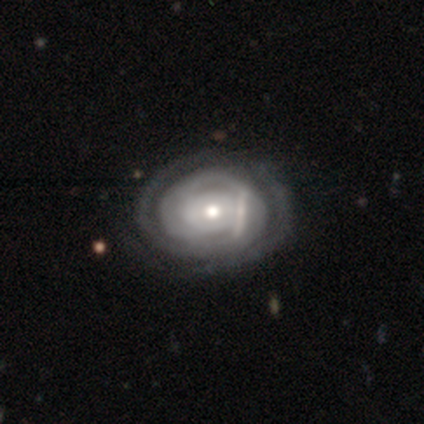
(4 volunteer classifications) A featured or disk galaxy (75%) with no bar (67%), tight (100%) spiral arms (100%) and a small central bulge (67%). Merging: none (75%).